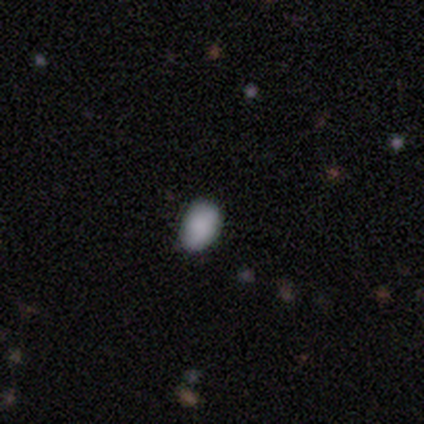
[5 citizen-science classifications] Smooth or featured: smooth — 80% (featured or disk — 20%)
How rounded: in between — 100%
Merging: none — 100%